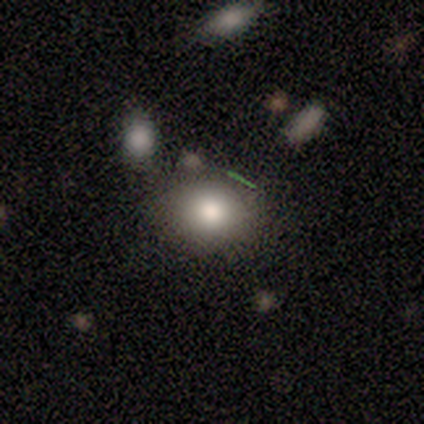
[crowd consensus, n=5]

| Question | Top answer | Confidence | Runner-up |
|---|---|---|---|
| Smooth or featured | smooth | 80% | featured or disk (20%) |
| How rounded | in between | 75% | round (25%) |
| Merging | none | 100% | — |